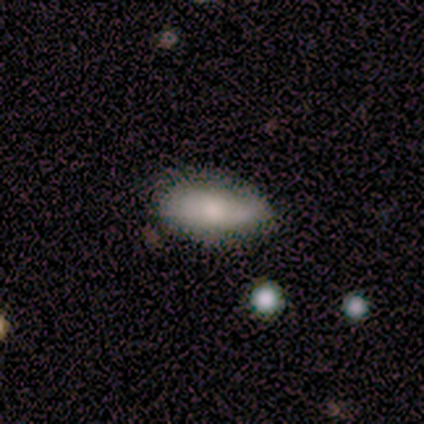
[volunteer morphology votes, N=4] Smooth or featured? 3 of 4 (75%) said smooth. How rounded? 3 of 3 (100%) said in between. Merging? 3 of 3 (100%) said none.